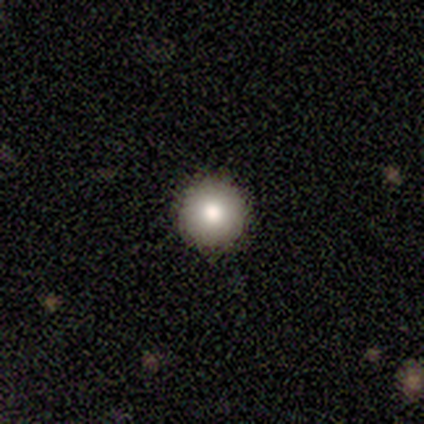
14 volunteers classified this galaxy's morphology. Smooth or featured? smooth (100%)
How rounded? round (100%)
Merging? none (93%)